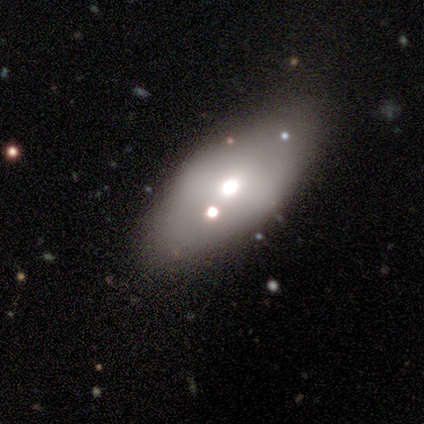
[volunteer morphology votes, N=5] smooth_or_featured: smooth (p=0.60) [alt: featured or disk p=0.20]
how_rounded: in between (p=0.67) [alt: round p=0.33]
merging: none (p=0.75) [alt: minor disturbance p=0.25]